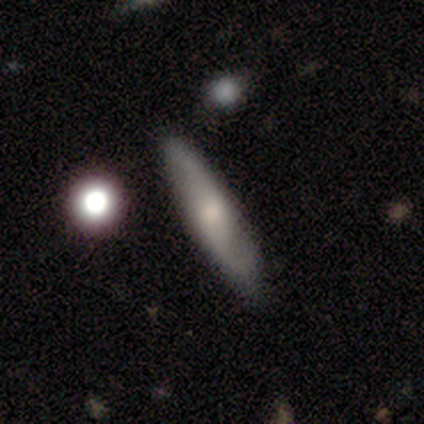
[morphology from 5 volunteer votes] type=featured or disk (80%); edge-on=no (75%); bar=no (100%); spiral arms=yes (100%); winding=medium (67%); arm count=2 (100%); bulge=moderate (67%); merging=none (80%).